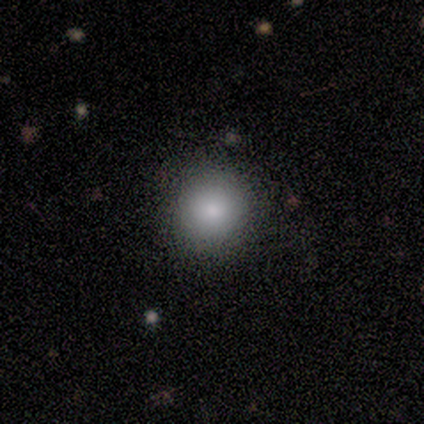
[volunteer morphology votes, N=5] type=smooth (100%); roundness=round (100%); merging=none (100%).